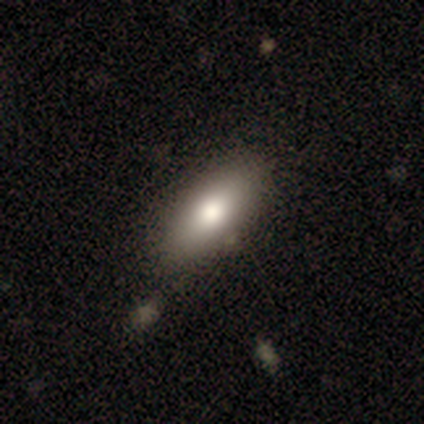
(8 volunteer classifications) Smooth or featured: smooth — 100%
How rounded: in between — 62% (cigar-shaped — 38%)
Merging: none — 75% (minor disturbance — 12%)